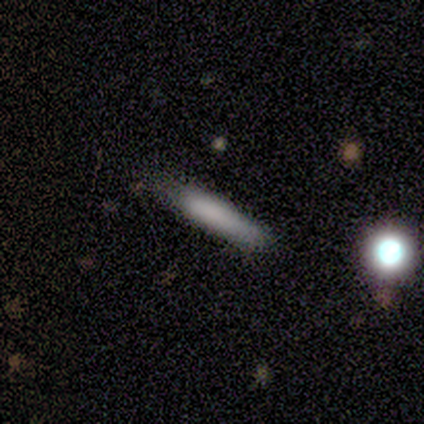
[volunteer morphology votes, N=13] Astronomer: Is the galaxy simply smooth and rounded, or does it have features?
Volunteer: smooth — 77%.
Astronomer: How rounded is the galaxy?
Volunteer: cigar-shaped — 100%.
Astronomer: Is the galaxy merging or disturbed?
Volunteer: none — 69%.